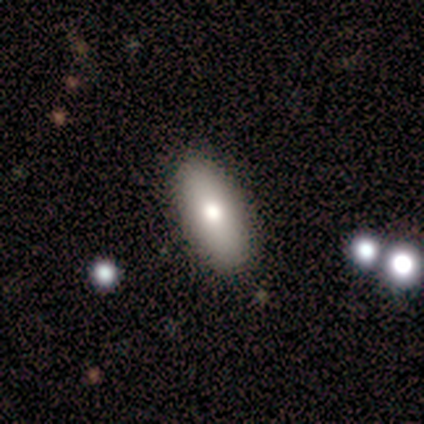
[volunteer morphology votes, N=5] smooth_or_featured: smooth (p=1.00)
how_rounded: in between (p=0.60) [alt: cigar-shaped p=0.40]
merging: none (p=1.00)